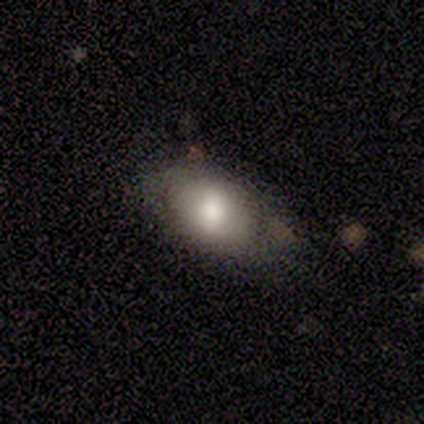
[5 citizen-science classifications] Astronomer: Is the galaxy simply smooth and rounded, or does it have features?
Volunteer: smooth — 100%.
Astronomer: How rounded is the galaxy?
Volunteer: in between — 80%.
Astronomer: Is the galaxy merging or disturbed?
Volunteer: none — 60%.